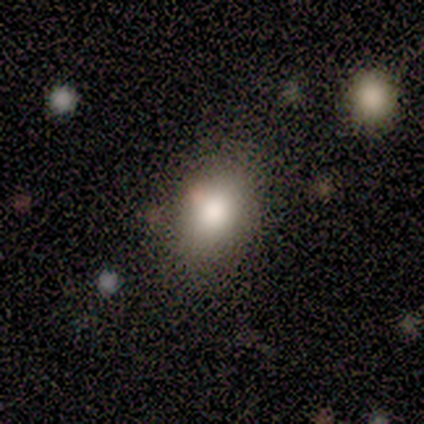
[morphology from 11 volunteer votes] A smooth galaxy with no disk features (100%) that is in between round and cigar-shaped (91%). Merging: none (91%).